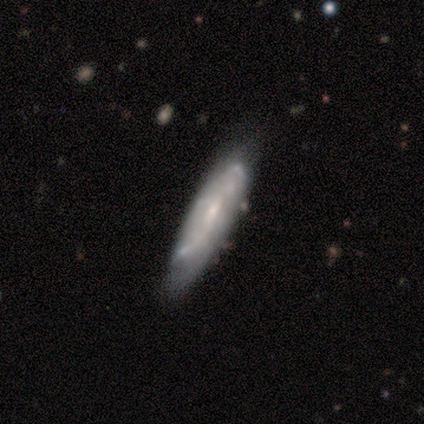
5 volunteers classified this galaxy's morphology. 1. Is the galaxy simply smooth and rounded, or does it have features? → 60% featured or disk, 40% smooth, 0% star or artifact.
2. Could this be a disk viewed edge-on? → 67% no, 33% yes.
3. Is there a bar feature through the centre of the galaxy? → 50% weak (tied), 50% no (tied), 0% strong.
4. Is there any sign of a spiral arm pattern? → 50% yes (tied), 50% no (tied).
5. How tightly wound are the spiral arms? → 100% medium, 0% tight, 0% loose.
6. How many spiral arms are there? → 100% can't tell, 0% 1, 0% 2, 0% 3, 0% 4, 0% more than 4.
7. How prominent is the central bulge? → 100% small, 0% dominant, 0% large, 0% moderate, 0% none.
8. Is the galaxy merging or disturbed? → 60% none, 20% minor disturbance, 20% merger, 0% major disturbance.